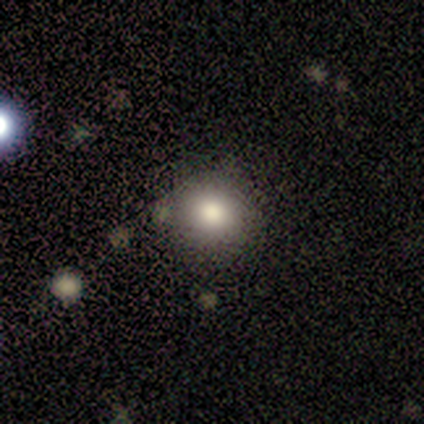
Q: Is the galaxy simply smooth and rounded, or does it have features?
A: smooth — 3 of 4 (75%).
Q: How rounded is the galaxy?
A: round — 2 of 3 (67%).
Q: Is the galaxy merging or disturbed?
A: none — 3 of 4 (75%).